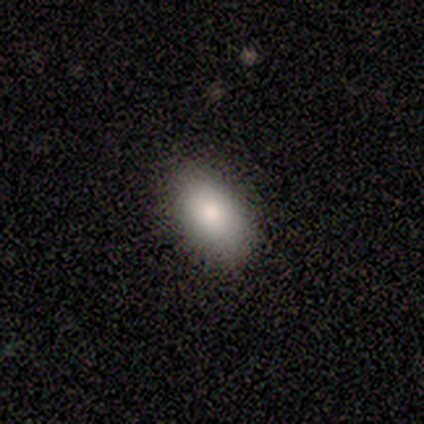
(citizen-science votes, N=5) Smooth or featured: smooth — 100%
How rounded: in between — 100%
Merging: none — 100%